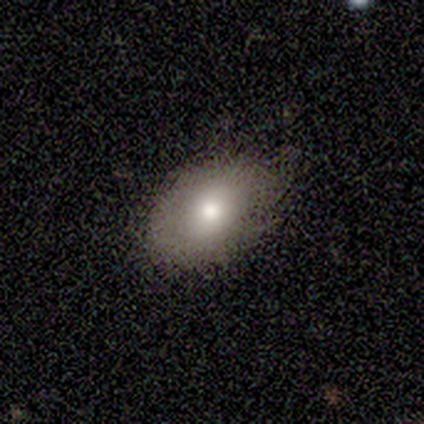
A smooth galaxy with no disk features (82%) that is in between round and cigar-shaped (79%).

Vote fractions:
- Smooth or featured? smooth: 82% / featured or disk: 10% / star or artifact: 8%
- How rounded? in between: 79% / round: 19% / cigar-shaped: 1%
- Merging? none: 75% / minor disturbance: 21% / major disturbance: 4% / merger: 0%